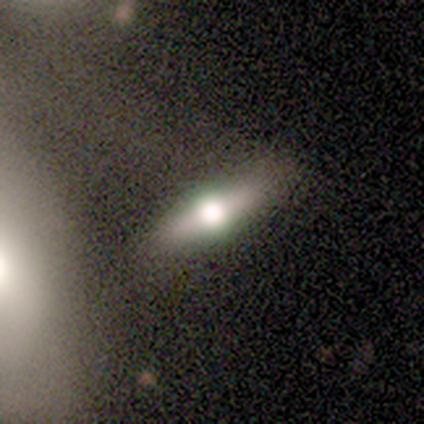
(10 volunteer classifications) Smooth or featured? featured or disk (70%)
Edge-on disk? yes (100%)
Edge-on bulge? rounded (100%)
Merging? none (67%)